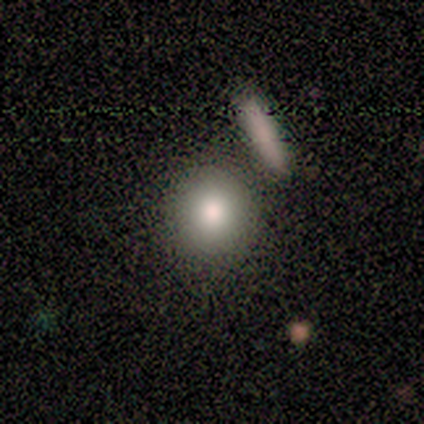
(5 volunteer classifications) Volunteers were most divided on "how rounded" (2-way tie): round: 50%, in between: 50%, cigar-shaped: 0%; "merging" (2-way tie): none: 40%, minor disturbance: 40%, merger: 20%, major disturbance: 0%. More confident: smooth or featured — smooth (80%).